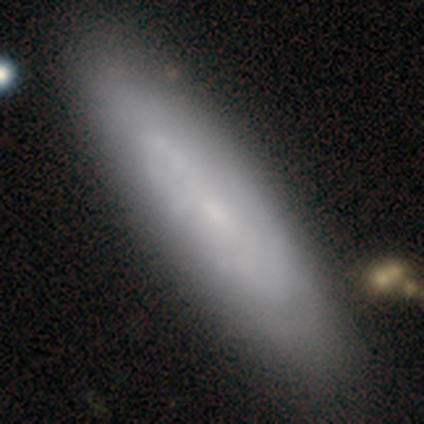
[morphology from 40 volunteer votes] type=featured or disk (52%); edge-on=no (81%); bar=no (76%); spiral arms=yes (53%); winding=tight (44%); arm count=can't tell (100%); bulge=small (53%); merging=none (52%).